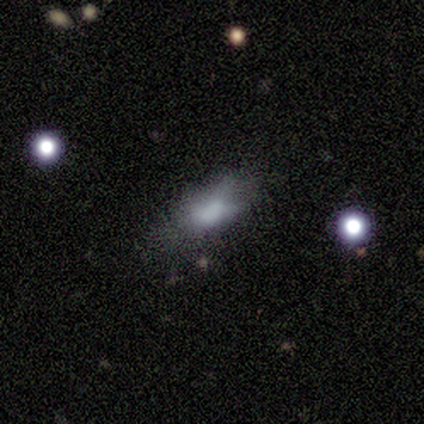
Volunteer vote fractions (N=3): Q: Smooth or featured?
A: featured or disk (67%); runner-up: smooth (33%)
Q: Edge-on disk?
A: no (100%)
Q: Bar?
A: no (100%)
Q: Spiral arms?
A: no (100%)
Q: Bulge size?
A: none (100%)
Q: Merging?
A: none (100%)